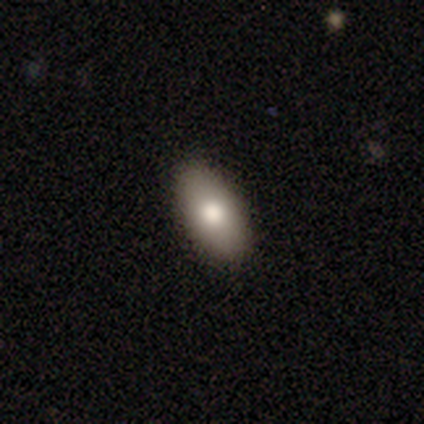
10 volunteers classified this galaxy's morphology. Volunteers were most divided on "smooth or featured": smooth: 90%, featured or disk: 10%, star or artifact: 0%. More confident: how rounded — in between (100%); merging — none (100%).